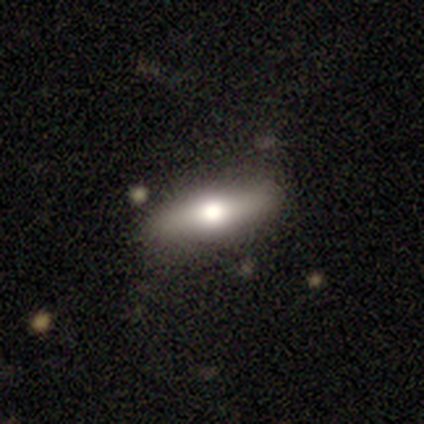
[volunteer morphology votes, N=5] Smooth or featured? featured or disk (60%)
Edge-on disk? yes (67%)
Edge-on bulge? rounded (100%)
Merging? none (100%)